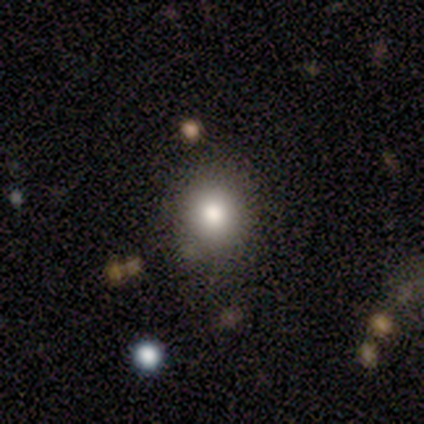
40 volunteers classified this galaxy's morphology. Overall: smooth (78%). How rounded: round (81%). Merging: none (83%).